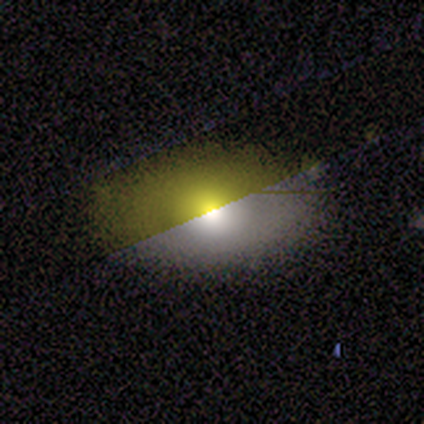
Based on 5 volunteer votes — Overall: smooth (60%; featured or disk 20%). How rounded: in between (67%; round 33%). Merging: none (75%).